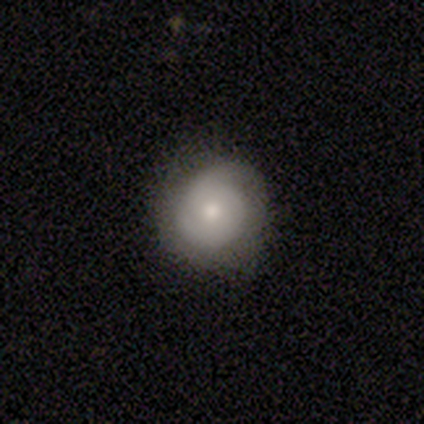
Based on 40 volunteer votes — Smooth or featured?
  - featured or disk: 48% *
  - smooth: 45%
  - star or artifact: 8%
Edge-on disk?
  - no: 100% *
  - yes: 0%
Bar?
  - no: 95% *
  - weak: 5%
  - strong: 0%
Spiral arms?
  - yes: 84% *
  - no: 16%
Spiral winding?
  - tight: 81% *
  - medium: 12%
  - loose: 6%
Spiral arm count?
  - 2: 38% *
  - 1: 31%
  - can't tell: 19%
  - 3: 12%
  - 4: 0%
  - more than 4: 0%
Bulge size?
  - moderate: 63% *
  - small: 21%
  - large: 16%
  - dominant: 0%
  - none: 0%
Merging?
  - none: 76% *
  - minor disturbance: 22%
  - major disturbance: 3%
  - merger: 0%